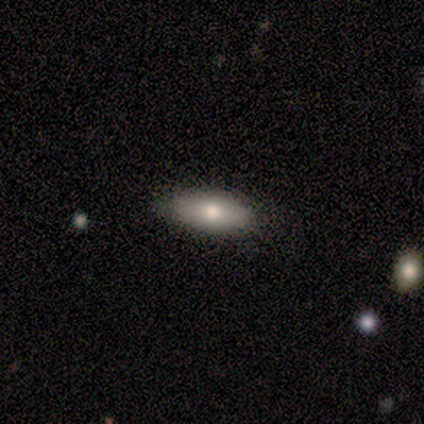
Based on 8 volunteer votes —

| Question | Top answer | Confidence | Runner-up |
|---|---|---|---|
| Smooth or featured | smooth | 75% | featured or disk (25%) |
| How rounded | in between | 67% | cigar-shaped (33%) |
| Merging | none | 88% | minor disturbance (12%) |